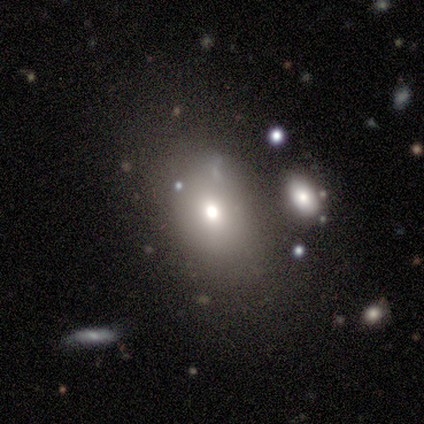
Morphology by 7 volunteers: Smooth or featured? 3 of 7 (43%, tied with star or artifact) said smooth. How rounded? 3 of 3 (100%) said in between. Merging? 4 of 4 (100%) said none.